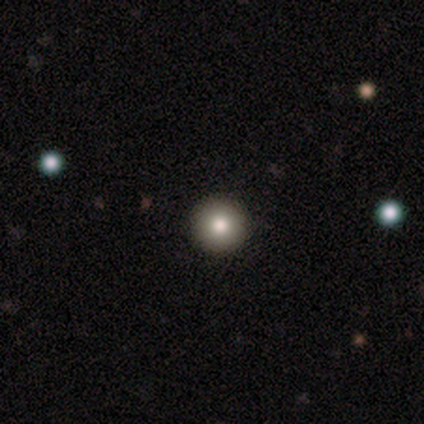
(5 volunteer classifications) Smooth or featured? 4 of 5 (80%) said smooth. How rounded? 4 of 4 (100%) said round. Merging? 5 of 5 (100%) said none.